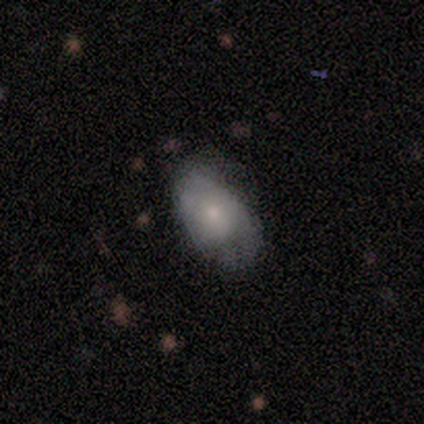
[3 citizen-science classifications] Volunteers were most divided on "spiral arms" (2-way tie): yes: 50%, no: 50%. More confident: edge-on disk — no (100%); bar — no (100%); spiral winding — medium (100%); spiral arm count — can't tell (100%); bulge size — moderate (100%); smooth or featured — featured or disk (67%); merging — none (67%).